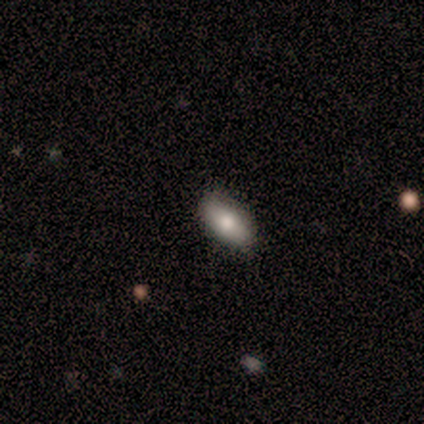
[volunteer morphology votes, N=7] Smooth or featured: smooth — 43% (tied with featured or disk — 43%)
How rounded: in between — 100%
Merging: none — 100%